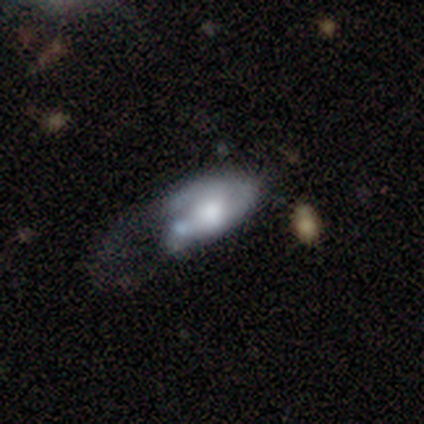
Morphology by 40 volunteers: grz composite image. It shows a smooth galaxy with no disk features (50%, tied with featured or disk) that is in between round and cigar-shaped (80%). Merging: major disturbance (60%).